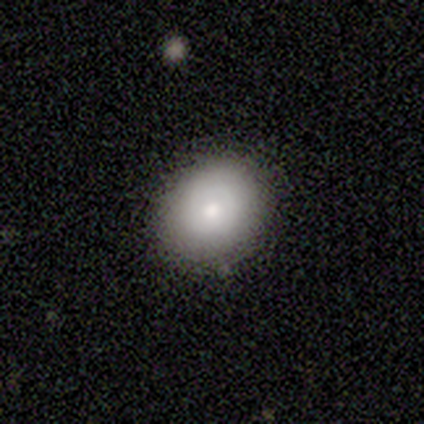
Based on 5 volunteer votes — Smooth or featured? 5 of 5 (100%) said smooth. How rounded? 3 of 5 (60%) said round. Merging? 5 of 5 (100%) said none.